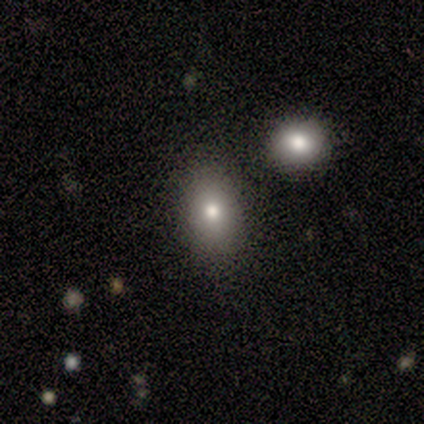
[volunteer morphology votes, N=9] Overall: smooth (78%). How rounded: in between (71%). Merging: none (71%).